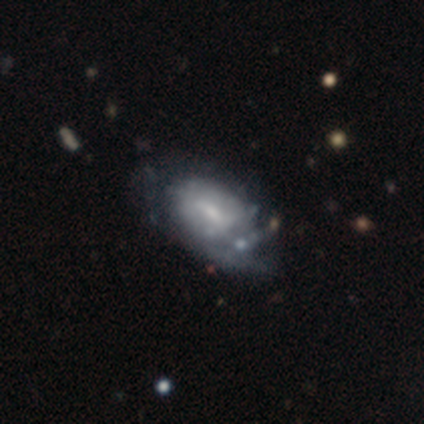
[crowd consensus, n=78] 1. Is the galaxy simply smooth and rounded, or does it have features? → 67% featured or disk, 32% smooth, 1% star or artifact.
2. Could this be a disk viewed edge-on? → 94% no, 6% yes.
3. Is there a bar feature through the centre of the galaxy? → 49% weak, 35% no, 16% strong.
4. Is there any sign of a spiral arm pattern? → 51% no, 49% yes.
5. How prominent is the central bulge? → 59% small, 24% moderate, 14% none, 2% dominant, 0% large.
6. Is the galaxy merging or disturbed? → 19% none, 14% minor disturbance, 12% major disturbance, 5% merger.